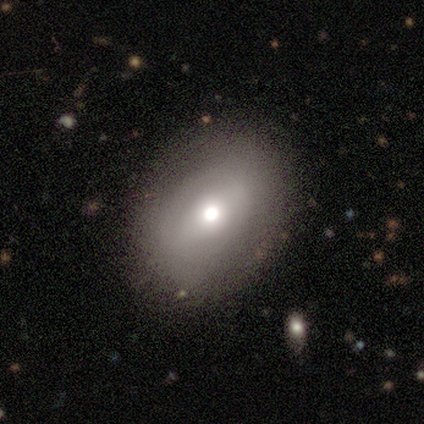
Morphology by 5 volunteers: Smooth or featured? featured or disk (60%)
Edge-on disk? no (100%)
Bar? no (67%)
Spiral arms? no (67%)
Bulge size? moderate (100%)
Merging? none (60%)